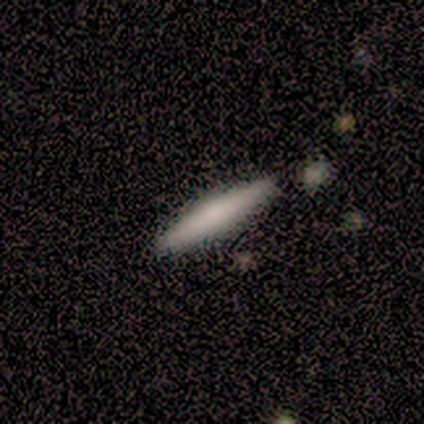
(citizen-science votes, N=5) smooth_or_featured: smooth (p=0.60) [alt: featured or disk p=0.40]
how_rounded: cigar-shaped (p=1.00)
merging: none (p=0.60) [alt: minor disturbance p=0.20]